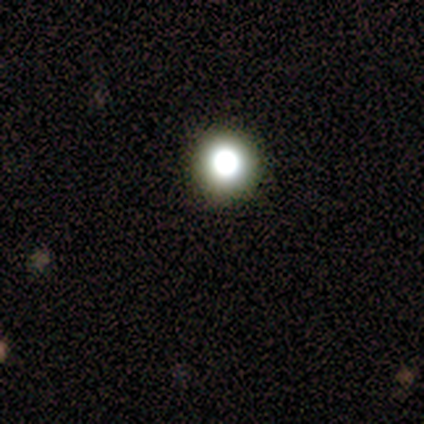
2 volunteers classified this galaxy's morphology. A smooth galaxy with no disk features (100%) that is round (100%).

Vote fractions:
- Smooth or featured? smooth: 100% / featured or disk: 0% / star or artifact: 0%
- How rounded? round: 100% / in between: 0% / cigar-shaped: 0%
- Merging? none: 100% / minor disturbance: 0% / major disturbance: 0% / merger: 0%